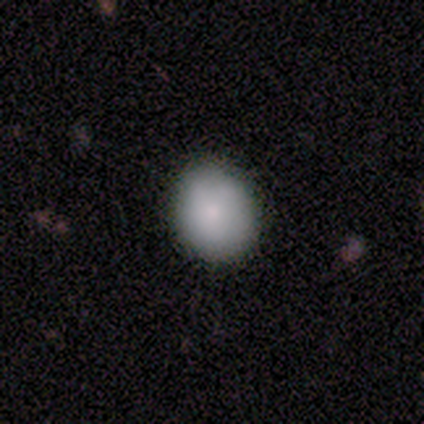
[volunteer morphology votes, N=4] smooth-or-featured: smooth: 100% | featured or disk: 0% | star or artifact: 0%
  how-rounded: round: 75% | in between: 25% | cigar-shaped: 0%
  merging: none: 100% | minor disturbance: 0% | major disturbance: 0% | merger: 0%